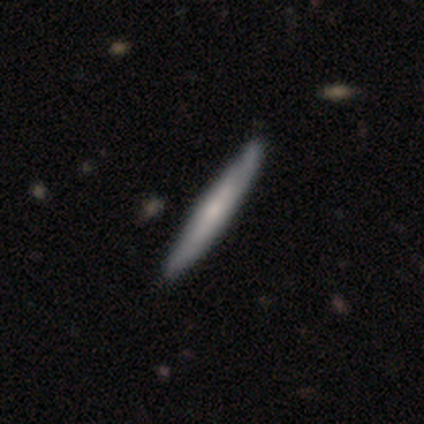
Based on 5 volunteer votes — featured or disk 60%, smooth 20%, star or artifact 20%. Down the decision tree: edge-on disk — yes (100%); edge-on bulge — none (100%); merging — none (50%, tied with minor disturbance).